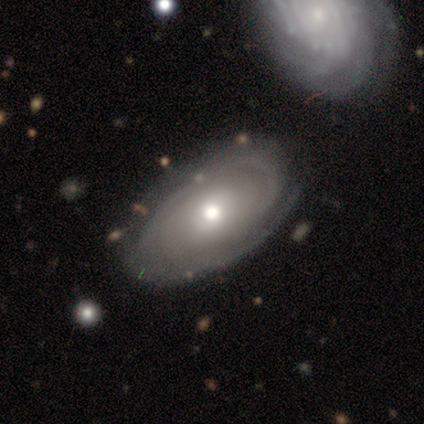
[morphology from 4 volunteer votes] smooth-or-featured: featured or disk: 100% | smooth: 0% | star or artifact: 0%
  disk-edge-on: no: 100% | yes: 0%
    bar: no: 100% | strong: 0% | weak: 0%
    has-spiral-arms: yes: 75% | no: 25%
      spiral-winding: tight: 100% | medium: 0% | loose: 0%
      spiral-arm-count: can't tell: 67% | 3: 33% | 1: 0% | 2: 0% | 4: 0% | more than 4: 0%
    bulge-size: moderate: 100% | dominant: 0% | large: 0% | small: 0% | none: 0%
  merging: none: 100% | minor disturbance: 0% | major disturbance: 0% | merger: 0%